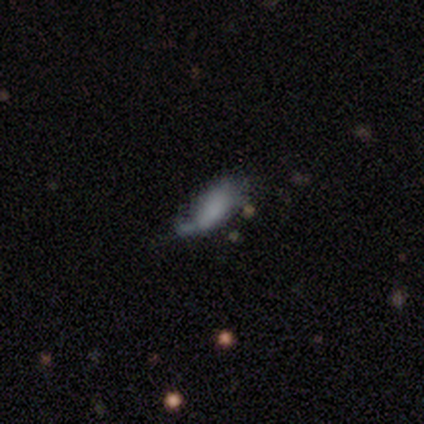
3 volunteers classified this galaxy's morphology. Volunteers were most divided on "how rounded" (2-way tie): in between: 50%, cigar-shaped: 50%, round: 0%. More confident: smooth or featured — smooth (67%); merging — minor disturbance (67%).